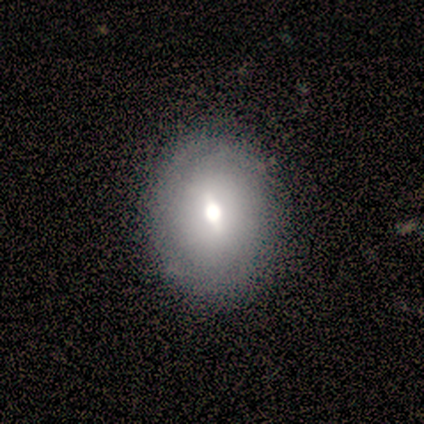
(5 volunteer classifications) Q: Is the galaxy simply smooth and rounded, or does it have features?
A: featured or disk — 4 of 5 (80%).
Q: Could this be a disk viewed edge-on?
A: no — 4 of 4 (100%).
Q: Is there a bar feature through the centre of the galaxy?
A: weak — 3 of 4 (75%).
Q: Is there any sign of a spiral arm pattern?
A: no — 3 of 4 (75%).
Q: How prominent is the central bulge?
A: moderate — 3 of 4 (75%).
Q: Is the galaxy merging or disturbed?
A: none — 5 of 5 (100%).